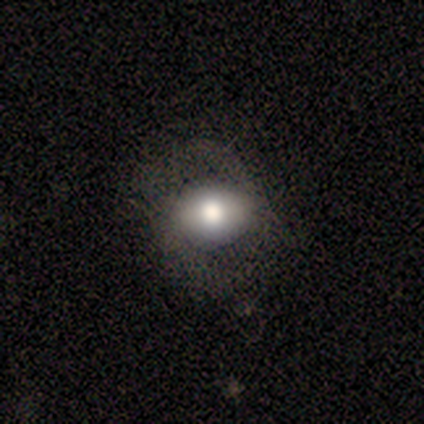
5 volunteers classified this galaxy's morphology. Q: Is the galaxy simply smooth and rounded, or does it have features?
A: featured or disk — 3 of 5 (60%).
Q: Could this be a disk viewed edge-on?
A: no — 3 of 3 (100%).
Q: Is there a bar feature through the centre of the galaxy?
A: no — 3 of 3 (100%).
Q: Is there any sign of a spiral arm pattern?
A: no — 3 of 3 (100%).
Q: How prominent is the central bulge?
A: moderate — 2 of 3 (67%).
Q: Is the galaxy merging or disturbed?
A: none — 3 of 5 (60%).